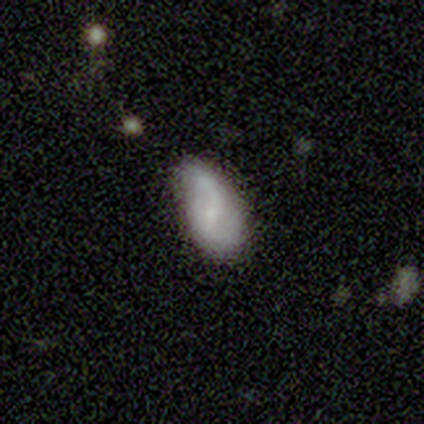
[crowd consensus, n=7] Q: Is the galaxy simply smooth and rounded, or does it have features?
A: featured or disk — 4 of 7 (57%).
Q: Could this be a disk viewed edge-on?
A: no — 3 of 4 (75%).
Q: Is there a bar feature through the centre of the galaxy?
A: weak — 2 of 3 (67%).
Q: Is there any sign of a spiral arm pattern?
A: yes — 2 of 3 (67%).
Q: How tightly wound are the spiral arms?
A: loose — 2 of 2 (100%).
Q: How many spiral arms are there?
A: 2 — 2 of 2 (100%).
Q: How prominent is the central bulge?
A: moderate — 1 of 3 (33%, tied with small and none).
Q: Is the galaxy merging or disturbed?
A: none — 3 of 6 (50%, tied with minor disturbance).